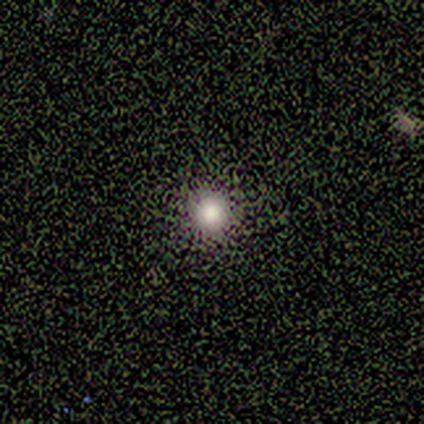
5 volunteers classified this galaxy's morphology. Q: Smooth or featured?
A: smooth (100%)
Q: How rounded?
A: round (100%)
Q: Merging?
A: none (100%)